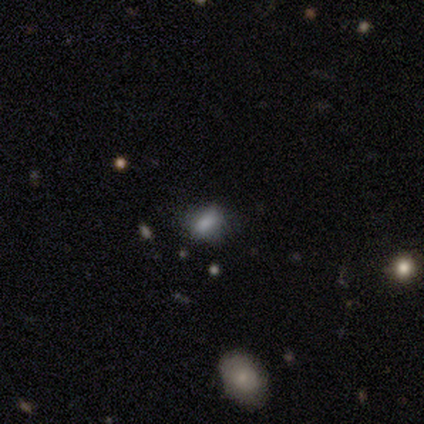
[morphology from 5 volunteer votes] smooth 80%, featured or disk 20%, star or artifact 0%. Down the decision tree: how rounded — in between (75%); merging — none (60%).